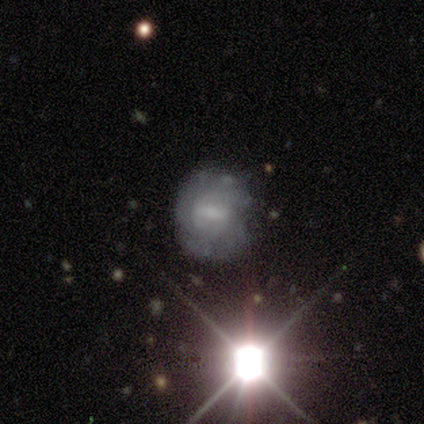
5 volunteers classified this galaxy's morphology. Smooth or featured? star or artifact (60%)